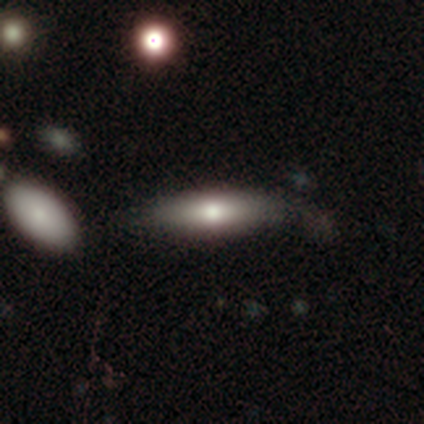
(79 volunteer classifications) Q: Smooth or featured?
A: smooth (67%); runner-up: featured or disk (25%)
Q: How rounded?
A: in between (62%); runner-up: cigar-shaped (36%)
Q: Merging?
A: none (27%); runner-up: minor disturbance (12%)